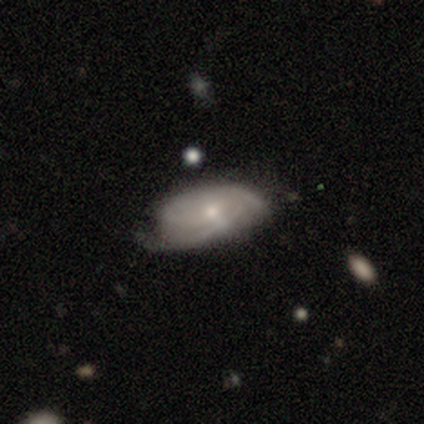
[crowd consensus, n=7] Volunteers were most divided on "spiral winding": tight: 60%, medium: 40%, loose: 0%. More confident: edge-on disk — no (100%); bar — no (100%); smooth or featured — featured or disk (86%); spiral arms — yes (83%); bulge size — small (67%); merging — none (67%); spiral arm count — can't tell (60%).